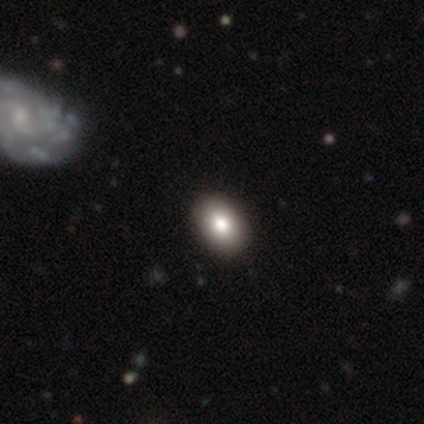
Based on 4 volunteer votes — A smooth galaxy with no disk features (75%) that is in between round and cigar-shaped (67%). Merging: none (100%).